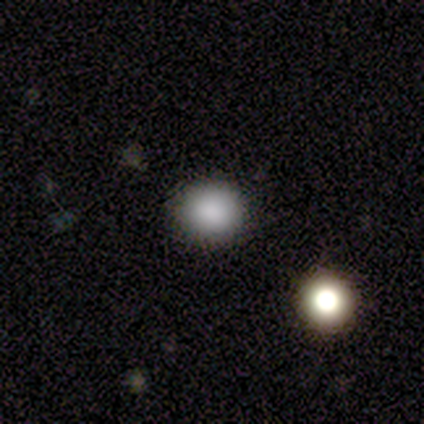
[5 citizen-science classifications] This appears to be a smooth galaxy with no disk features (100%) that is round (100%). Merging: none (100%).